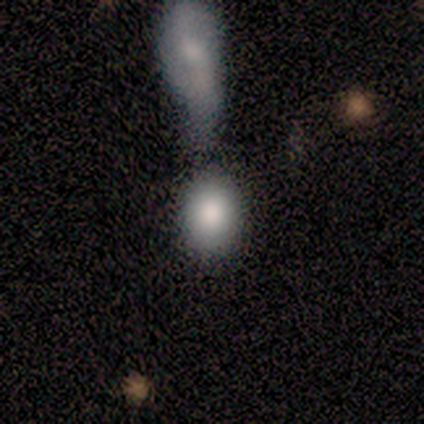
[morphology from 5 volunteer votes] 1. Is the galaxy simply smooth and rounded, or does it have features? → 100% smooth, 0% featured or disk, 0% star or artifact.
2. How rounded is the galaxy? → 80% in between, 20% round, 0% cigar-shaped.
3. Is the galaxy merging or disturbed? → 80% merger, 20% none, 0% minor disturbance, 0% major disturbance.